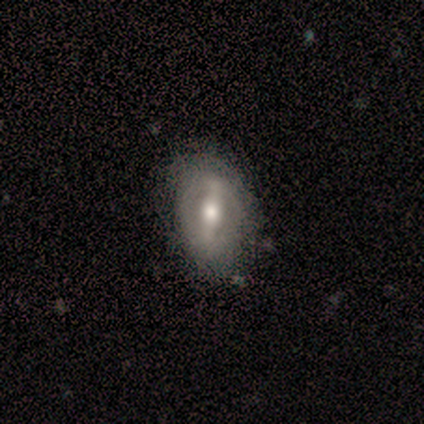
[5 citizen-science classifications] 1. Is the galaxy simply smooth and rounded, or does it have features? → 80% featured or disk, 20% smooth, 0% star or artifact.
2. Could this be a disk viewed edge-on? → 75% no, 25% yes.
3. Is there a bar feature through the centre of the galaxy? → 100% strong, 0% weak, 0% no.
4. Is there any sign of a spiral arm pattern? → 67% no, 33% yes.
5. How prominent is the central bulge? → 67% moderate, 33% large, 0% dominant, 0% small, 0% none.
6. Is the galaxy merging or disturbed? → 80% none, 20% minor disturbance, 0% major disturbance, 0% merger.